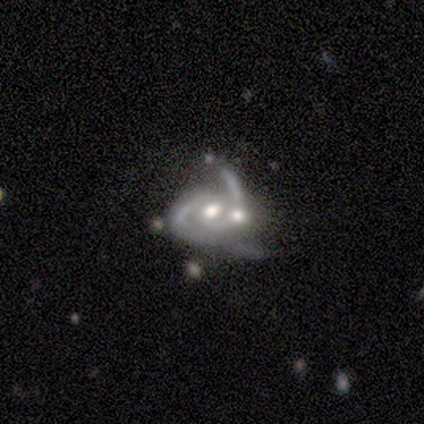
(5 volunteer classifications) Morphology: type=featured or disk (100%); edge-on=no (80%); bar=no (100%); spiral arms=yes (75%); winding=tight (67%); arm count=2 (67%); bulge=moderate (75%); merging=major disturbance (60%).